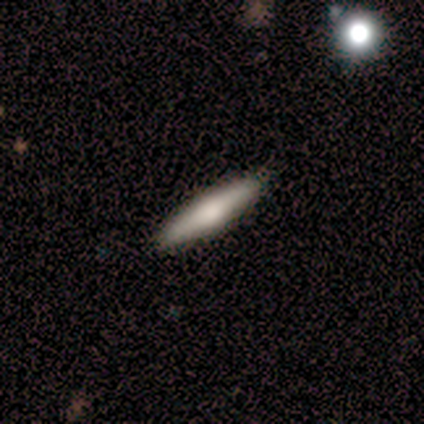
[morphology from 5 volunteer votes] Smooth or featured?
  - smooth: 80% *
  - featured or disk: 20%
  - star or artifact: 0%
How rounded?
  - cigar-shaped: 100% *
  - round: 0%
  - in between: 0%
Merging?
  - none: 100% *
  - minor disturbance: 0%
  - major disturbance: 0%
  - merger: 0%